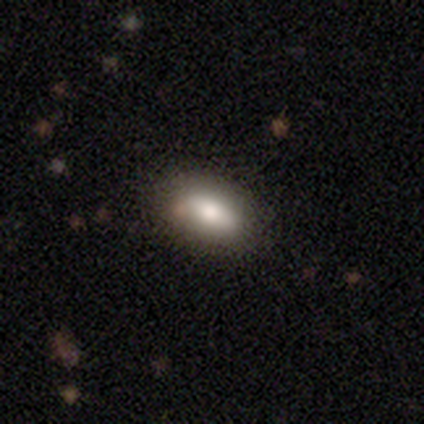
Overall: smooth (100%). How rounded: in between (100%). Merging: none (100%).